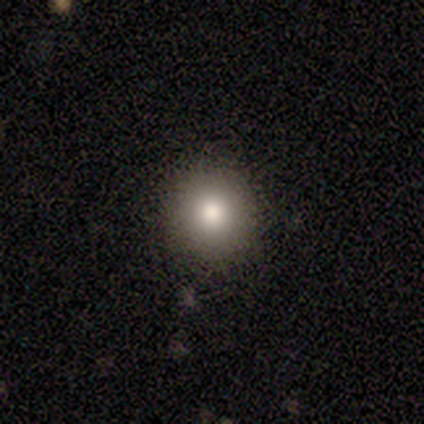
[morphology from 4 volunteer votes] Smooth or featured?
  - smooth: 75% *
  - star or artifact: 25%
  - featured or disk: 0%
How rounded?
  - round: 100% *
  - in between: 0%
  - cigar-shaped: 0%
Merging?
  - none: 67% *
  - minor disturbance: 33%
  - major disturbance: 0%
  - merger: 0%